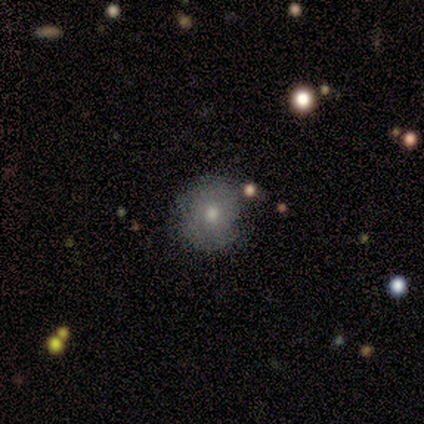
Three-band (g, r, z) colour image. It shows a smooth galaxy with no disk features (100%) that is round (100%). Merging: none (86%).